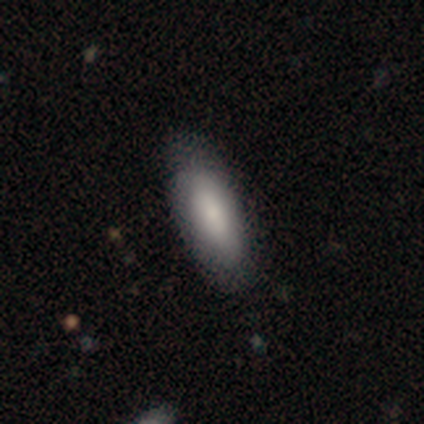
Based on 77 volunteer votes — Smooth or featured: smooth — 82% (featured or disk — 13%)
How rounded: in between — 79% (cigar-shaped — 21%)
Merging: none — 45% (minor disturbance — 5%)